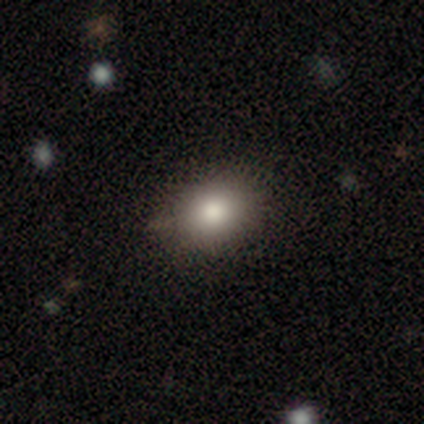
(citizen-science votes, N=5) Q: Smooth or featured?
A: smooth (80%); runner-up: star or artifact (20%)
Q: How rounded?
A: round (75%); runner-up: in between (25%)
Q: Merging?
A: none (100%)